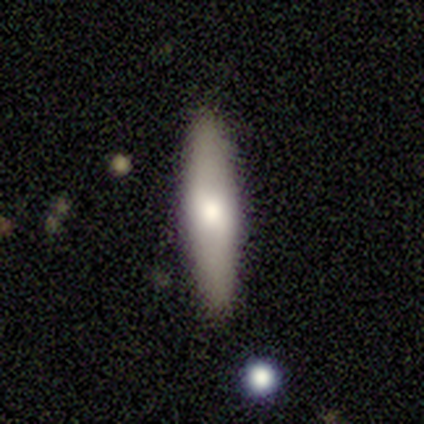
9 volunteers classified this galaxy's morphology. A smooth galaxy with no disk features (67%) that is cigar-shaped (67%).

Vote fractions:
- Smooth or featured? smooth: 67% / featured or disk: 33% / star or artifact: 0%
- How rounded? cigar-shaped: 67% / in between: 33% / round: 0%
- Merging? none: 78% / minor disturbance: 22% / major disturbance: 0% / merger: 0%